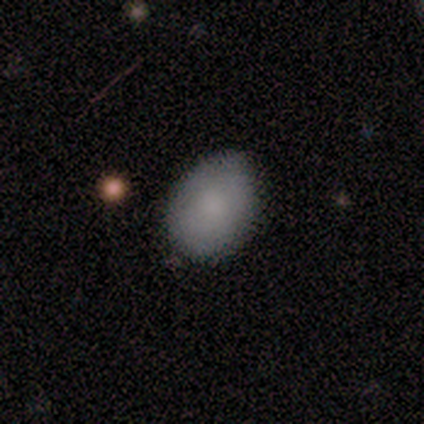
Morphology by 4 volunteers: Smooth or featured: smooth — 100%
How rounded: in between — 100%
Merging: none — 50% (tied with minor disturbance — 50%)